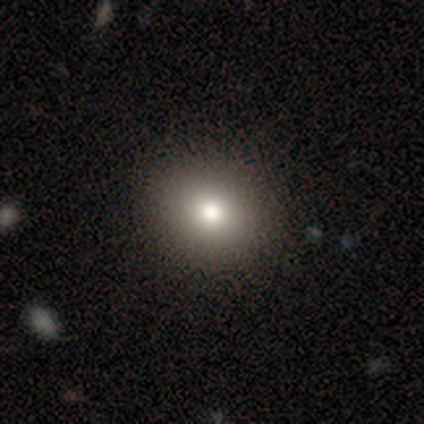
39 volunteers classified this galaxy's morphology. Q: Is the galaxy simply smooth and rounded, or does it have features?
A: smooth — 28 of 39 (72%).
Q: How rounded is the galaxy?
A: round — 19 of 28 (68%).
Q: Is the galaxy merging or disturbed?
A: none — 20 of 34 (59%).